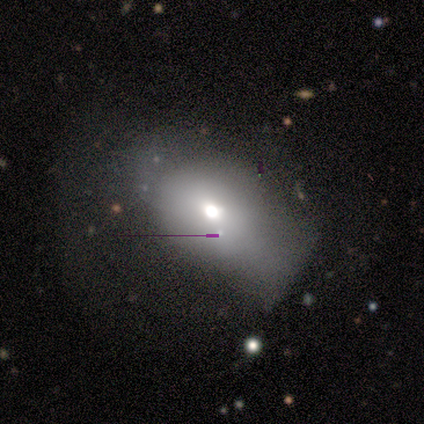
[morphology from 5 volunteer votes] smooth_or_featured: smooth (p=0.60) [alt: featured or disk p=0.40]
how_rounded: round (p=0.33) [tied with: in between p=0.33, cigar-shaped p=0.33]
merging: minor disturbance (p=0.40) [tied with: major disturbance p=0.40]